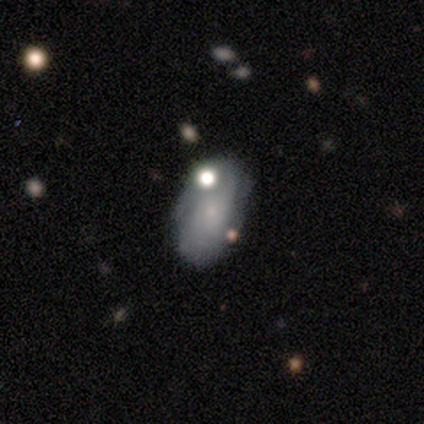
smooth_or_featured: smooth (p=0.40) [tied with: featured or disk p=0.40]
how_rounded: in between (p=1.00)
merging: none (p=0.75) [alt: minor disturbance p=0.25]